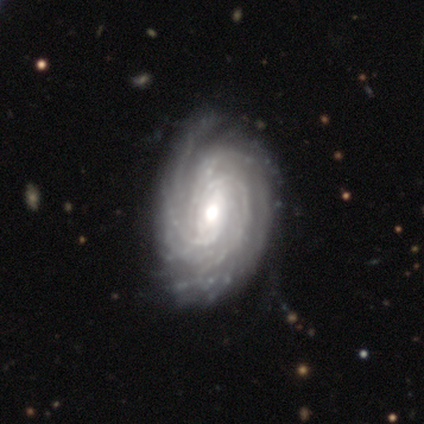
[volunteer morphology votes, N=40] Q: Smooth or featured?
A: featured or disk (98%); runner-up: smooth (2%)
Q: Edge-on disk?
A: no (97%); runner-up: yes (3%)
Q: Bar?
A: no (47%); runner-up: weak (39%)
Q: Spiral arms?
A: yes (97%); runner-up: no (3%)
Q: Spiral winding?
A: tight (78%); runner-up: medium (19%)
Q: Spiral arm count?
A: more than 4 (30%); tied with: can't tell (30%)
Q: Bulge size?
A: moderate (63%); runner-up: large (16%)
Q: Merging?
A: none (62%); runner-up: minor disturbance (8%)